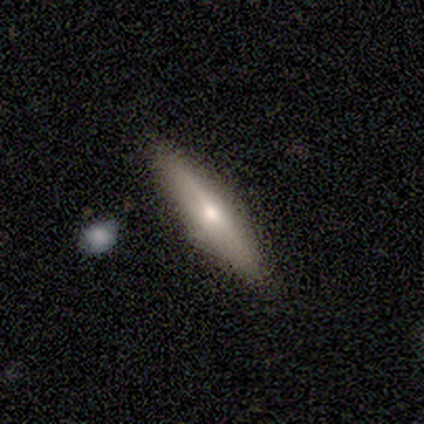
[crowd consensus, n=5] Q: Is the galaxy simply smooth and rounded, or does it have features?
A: smooth — 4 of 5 (80%).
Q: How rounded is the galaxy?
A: cigar-shaped — 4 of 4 (100%).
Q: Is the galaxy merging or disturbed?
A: none — 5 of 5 (100%).